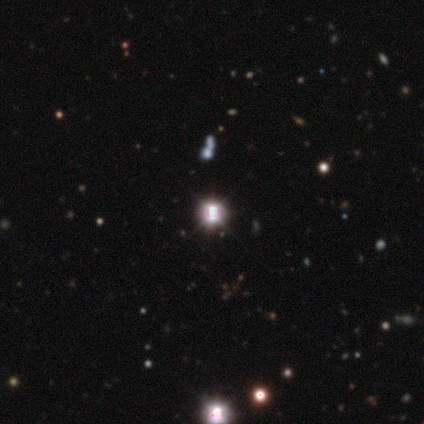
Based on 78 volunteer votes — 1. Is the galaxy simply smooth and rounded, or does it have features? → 92% star or artifact, 6% smooth, 1% featured or disk.